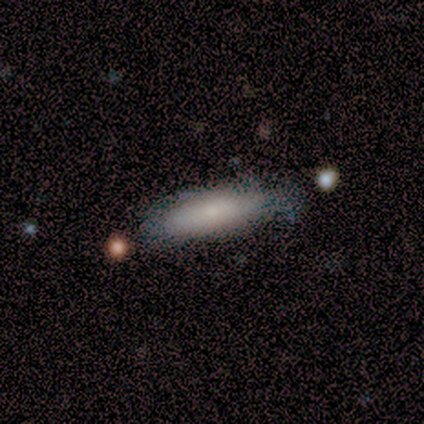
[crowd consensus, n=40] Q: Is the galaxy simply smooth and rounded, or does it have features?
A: smooth — 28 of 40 (70%).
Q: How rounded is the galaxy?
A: cigar-shaped — 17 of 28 (61%).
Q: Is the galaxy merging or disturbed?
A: none — 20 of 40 (50%).